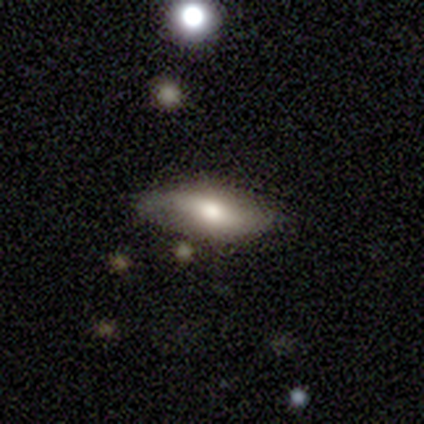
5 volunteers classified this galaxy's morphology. Smooth or featured? 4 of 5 (80%) said smooth. How rounded? 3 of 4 (75%) said in between. Merging? 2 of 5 (40%, tied with minor disturbance) said none.